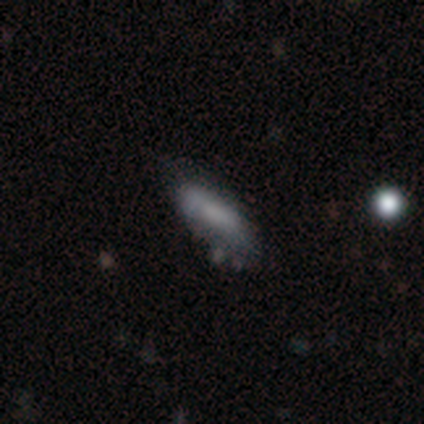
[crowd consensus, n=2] Smooth or featured? 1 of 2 (50%, tied with star or artifact) said featured or disk. Edge-on disk? 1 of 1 (100%) said no. Bar? 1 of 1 (100%) said no. Spiral arms? 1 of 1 (100%) said no. Bulge size? 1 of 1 (100%) said moderate. Merging? 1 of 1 (100%) said minor disturbance.